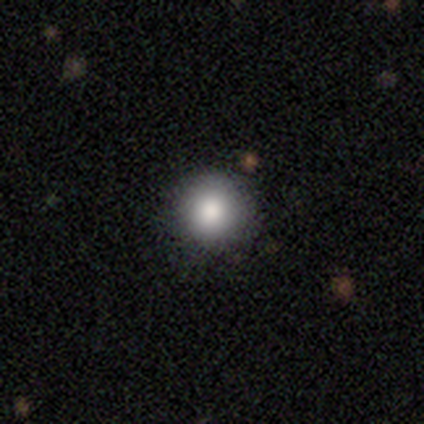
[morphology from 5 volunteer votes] A smooth galaxy with no disk features (100%) that is round (80%).

Vote fractions:
- Smooth or featured? smooth: 100% / featured or disk: 0% / star or artifact: 0%
- How rounded? round: 80% / in between: 20% / cigar-shaped: 0%
- Merging? none: 100% / minor disturbance: 0% / major disturbance: 0% / merger: 0%